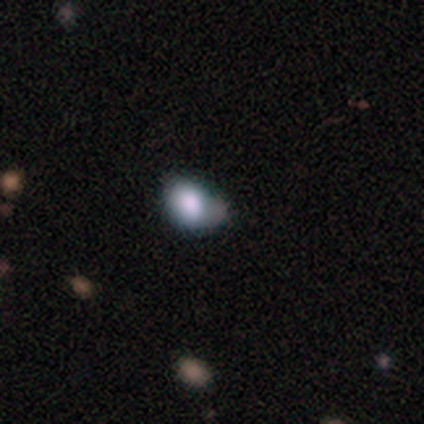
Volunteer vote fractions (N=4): smooth_or_featured: smooth (p=1.00)
how_rounded: in between (p=0.75) [alt: round p=0.25]
merging: minor disturbance (p=0.75) [alt: none p=0.25]